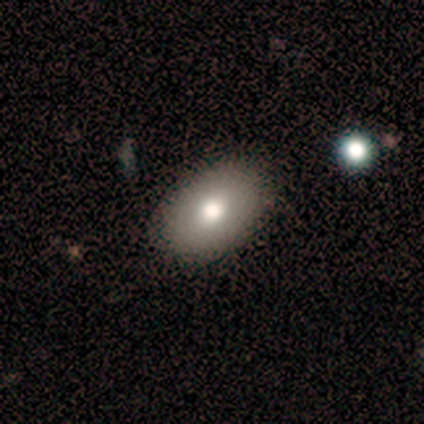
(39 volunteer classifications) smooth-or-featured: smooth: 79% | featured or disk: 10% | star or artifact: 10%
  how-rounded: in between: 100% | round: 0% | cigar-shaped: 0%
  merging: none: 91% | merger: 6% | minor disturbance: 3% | major disturbance: 0%